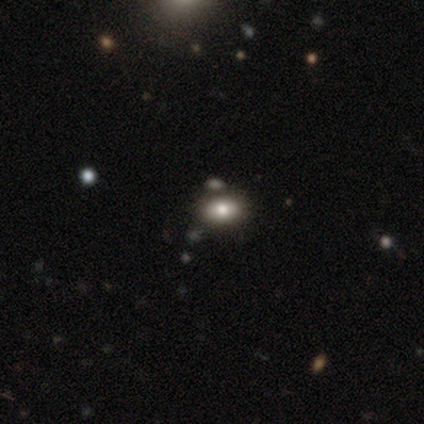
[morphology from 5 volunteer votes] smooth-or-featured: smooth: 60% | star or artifact: 40% | featured or disk: 0%
  how-rounded: in between: 100% | round: 0% | cigar-shaped: 0%
  merging: none: 67% | merger: 33% | minor disturbance: 0% | major disturbance: 0%